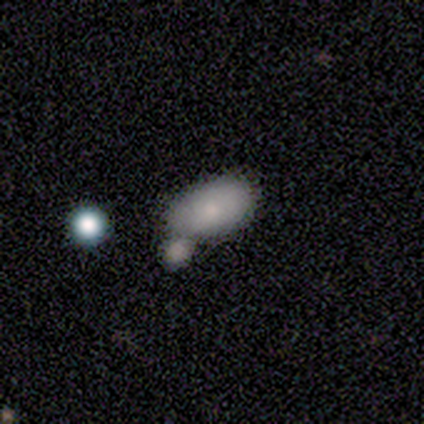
This is clearly a smooth galaxy (80%). How rounded: likely in between (75%). Merging: possibly none (50%).